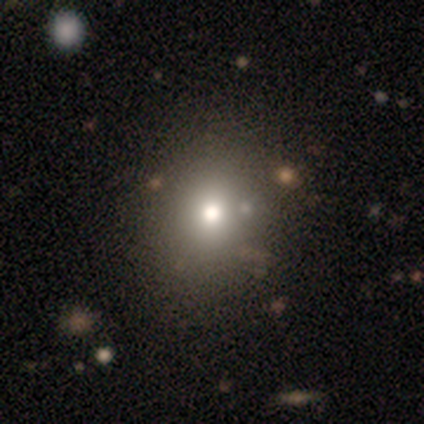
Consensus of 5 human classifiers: smooth-or-featured: smooth: 60% | star or artifact: 40% | featured or disk: 0%
  how-rounded: round: 100% | in between: 0% | cigar-shaped: 0%
  merging: none: 100% | minor disturbance: 0% | major disturbance: 0% | merger: 0%